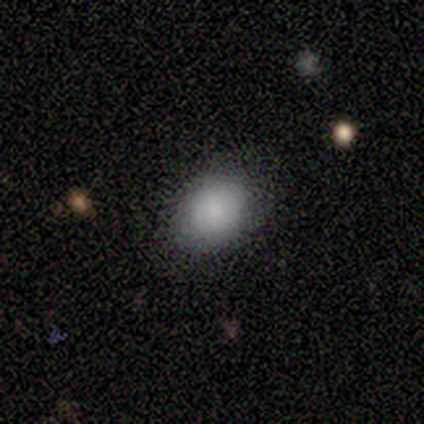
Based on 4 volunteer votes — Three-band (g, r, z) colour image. It shows a smooth galaxy with no disk features (50%) that is in between round and cigar-shaped (100%). Merging: none (67%).